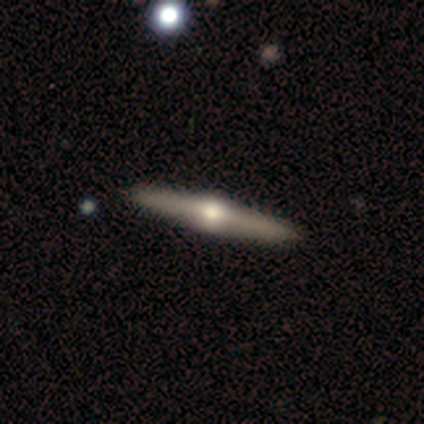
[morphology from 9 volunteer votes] Q: Smooth or featured?
A: featured or disk (78%); runner-up: smooth (11%)
Q: Edge-on disk?
A: yes (100%)
Q: Edge-on bulge?
A: rounded (100%)
Q: Merging?
A: none (88%); runner-up: minor disturbance (12%)